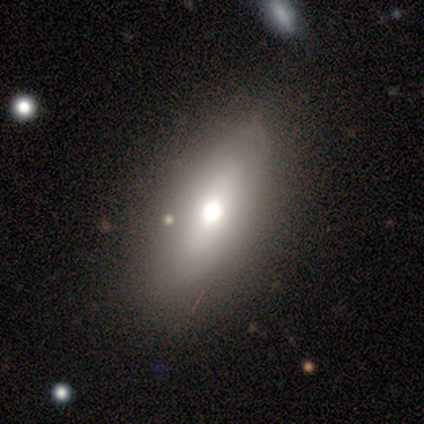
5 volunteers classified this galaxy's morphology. smooth-or-featured: smooth: 60% | featured or disk: 40% | star or artifact: 0%
  how-rounded: in between: 100% | round: 0% | cigar-shaped: 0%
  merging: none: 100% | minor disturbance: 0% | major disturbance: 0% | merger: 0%